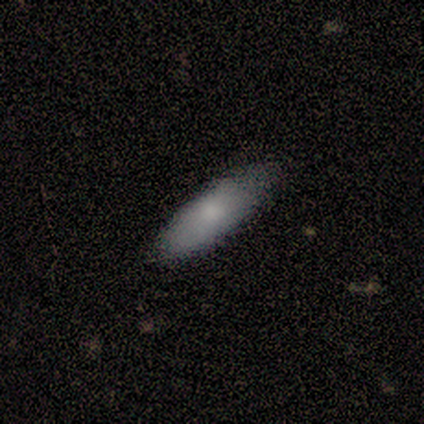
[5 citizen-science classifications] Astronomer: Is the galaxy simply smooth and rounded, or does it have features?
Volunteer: smooth — 100%.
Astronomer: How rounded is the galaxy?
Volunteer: cigar-shaped — 60% (runner-up: in between, 40%).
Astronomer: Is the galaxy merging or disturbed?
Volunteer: none — 60% (runner-up: minor disturbance, 40%).